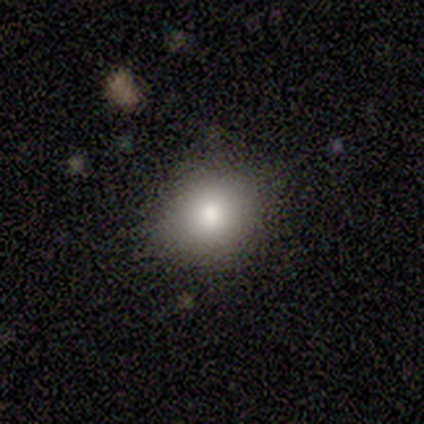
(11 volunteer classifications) smooth 73%, featured or disk 18%, star or artifact 9%. Down the decision tree: how rounded — round (88%); merging — none (90%).